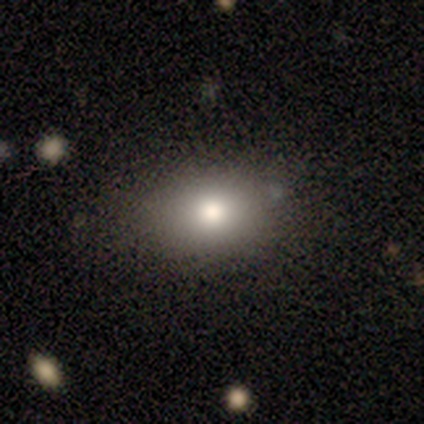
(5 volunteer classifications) Smooth or featured? smooth (80%)
How rounded? in between (75%)
Merging? none (80%)